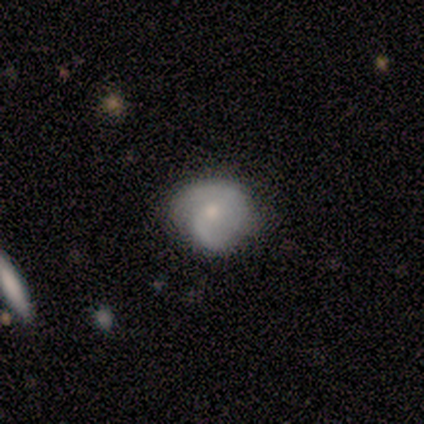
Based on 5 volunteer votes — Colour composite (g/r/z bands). It shows a smooth galaxy with no disk features (80%) that is round (75%). Merging: minor disturbance (60%).